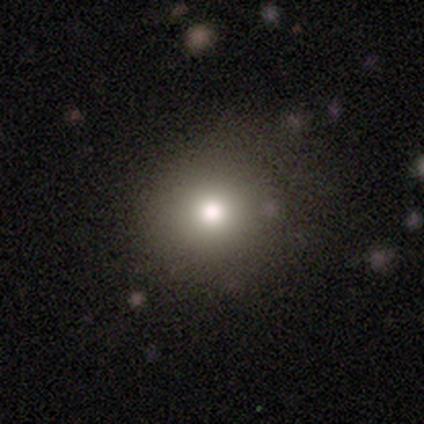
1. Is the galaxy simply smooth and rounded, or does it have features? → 50% smooth (tied), 50% star or artifact (tied), 0% featured or disk.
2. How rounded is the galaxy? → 100% round, 0% in between, 0% cigar-shaped.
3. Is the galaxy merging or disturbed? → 100% none, 0% minor disturbance, 0% major disturbance, 0% merger.